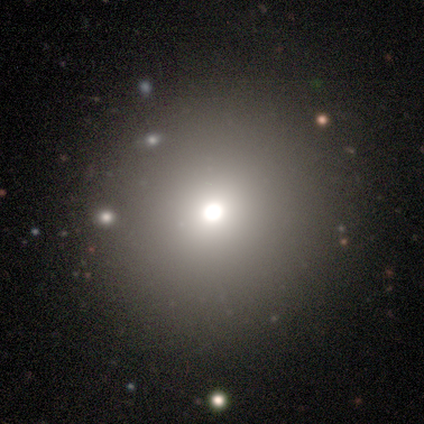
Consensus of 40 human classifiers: Morphology: type=smooth (62%); roundness=round (92%); merging=none (89%).